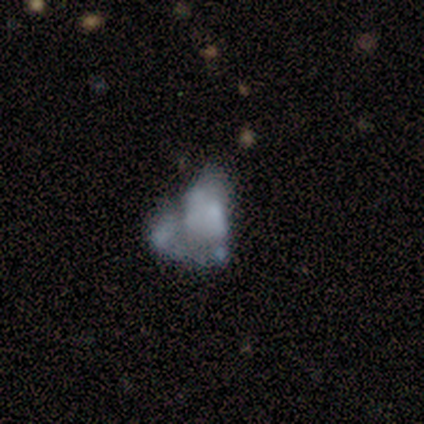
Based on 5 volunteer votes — smooth-or-featured: featured or disk: 60% | smooth: 40% | star or artifact: 0%
  disk-edge-on: no: 100% | yes: 0%
    bar: no: 100% | strong: 0% | weak: 0%
    has-spiral-arms: no: 67% | yes: 33%
    bulge-size: none: 100% | dominant: 0% | large: 0% | moderate: 0% | small: 0%
  merging: major disturbance: 60% | none: 20% | merger: 20% | minor disturbance: 0%